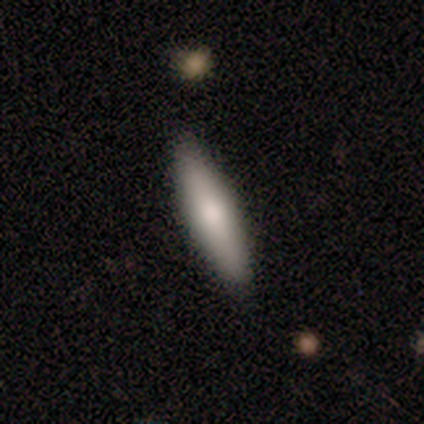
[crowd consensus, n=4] Smooth or featured? smooth (50%, tied with featured or disk)
How rounded? in between (100%)
Merging? none (100%)